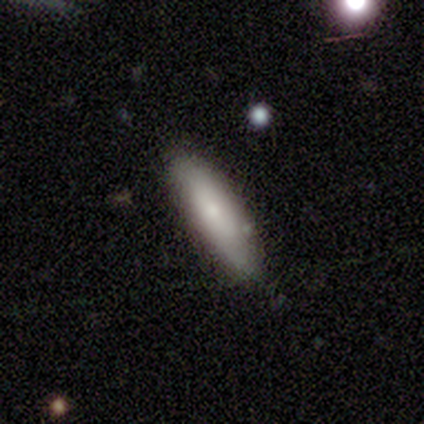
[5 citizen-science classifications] smooth-or-featured: smooth: 80% | featured or disk: 20% | star or artifact: 0%
  how-rounded: cigar-shaped: 75% | in between: 25% | round: 0%
  merging: none: 80% | minor disturbance: 20% | major disturbance: 0% | merger: 0%